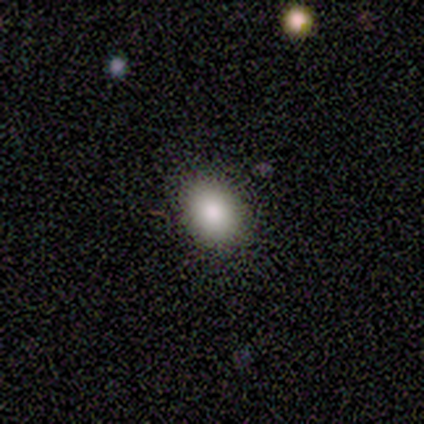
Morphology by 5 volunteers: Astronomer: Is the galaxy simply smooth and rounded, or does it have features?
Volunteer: smooth — 80%.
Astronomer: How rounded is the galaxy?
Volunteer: round — 50%, tied with in between at 50%.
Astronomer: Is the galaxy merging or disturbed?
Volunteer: none — 75%.